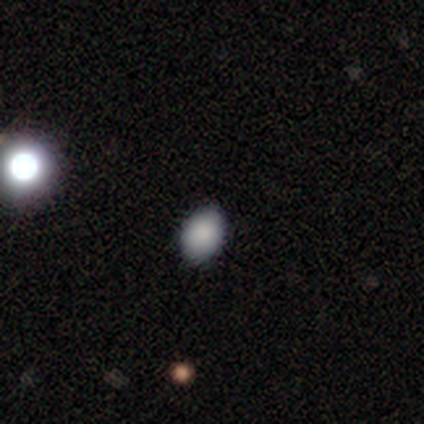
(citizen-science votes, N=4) Q: Smooth or featured?
A: smooth (50%); runner-up: featured or disk (25%)
Q: How rounded?
A: round (50%); tied with: in between (50%)
Q: Merging?
A: none (67%); runner-up: minor disturbance (33%)